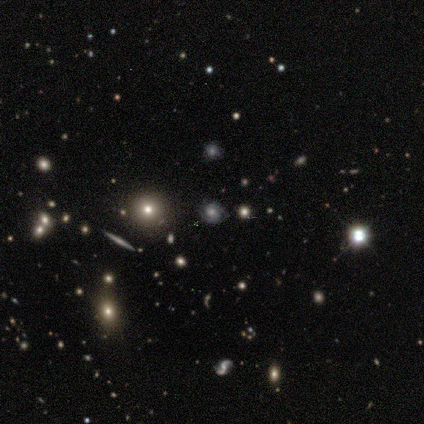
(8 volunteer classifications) star or artifact 50%, featured or disk 38%, smooth 12%.